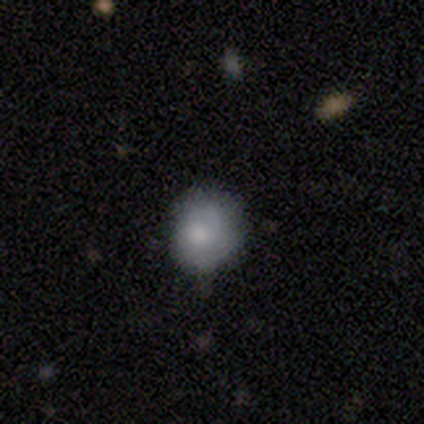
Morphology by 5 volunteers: smooth 80%, featured or disk 20%, star or artifact 0%. Down the decision tree: how rounded — round (100%); merging — none (60%).